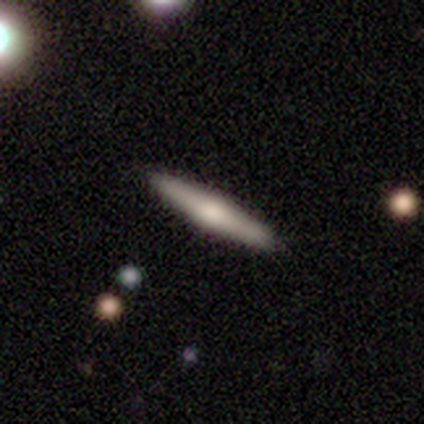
This appears to be a smooth galaxy with no disk features (60%) that is cigar-shaped (100%). Merging: none (100%).